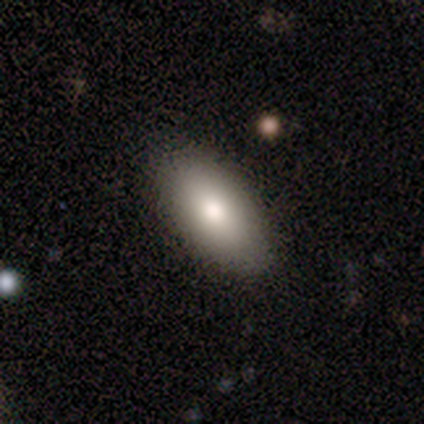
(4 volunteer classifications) Overall: smooth (75%). How rounded: in between (67%; round 33%). Merging: none (100%).